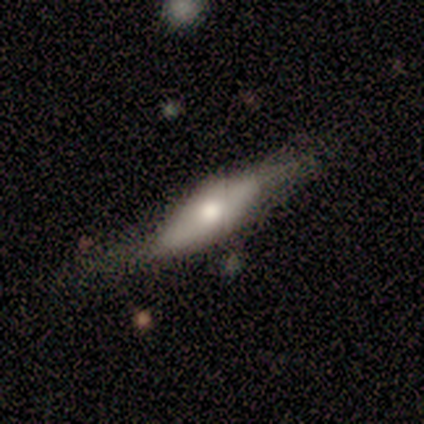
Overall: smooth (100%). How rounded: cigar-shaped (80%). Merging: none (40%, tied with minor disturbance).